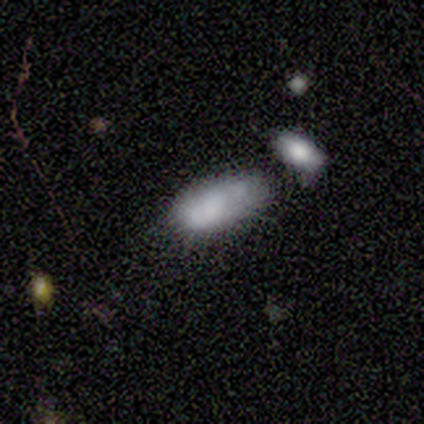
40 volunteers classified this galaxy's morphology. A smooth galaxy with no disk features (82%) that is in between round and cigar-shaped (94%).

Vote fractions:
- Smooth or featured? smooth: 82% / featured or disk: 12% / star or artifact: 5%
- How rounded? in between: 94% / round: 3% / cigar-shaped: 3%
- Merging? none: 42% / merger: 34% / minor disturbance: 16% / major disturbance: 8%